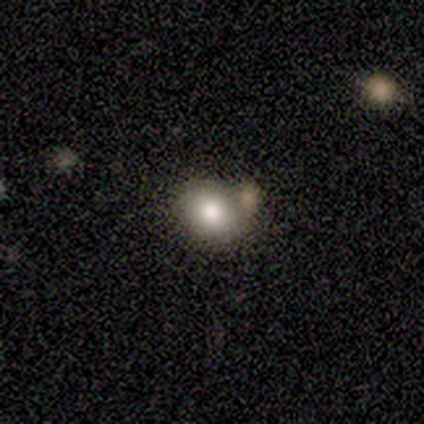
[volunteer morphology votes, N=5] Overall: smooth (60%; star or artifact 40%). How rounded: round (100%). Merging: none (100%).